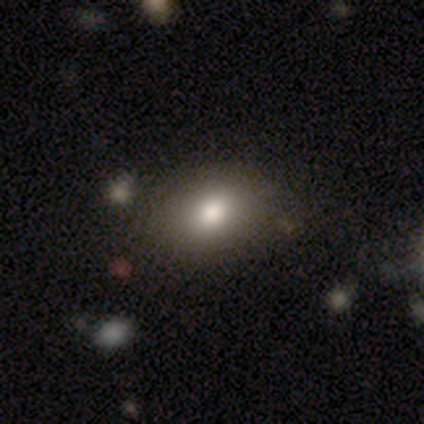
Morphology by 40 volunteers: Smooth or featured: smooth — 85% (featured or disk — 8%)
How rounded: in between — 65% (round — 35%)
Merging: none — 54% (minor disturbance — 8%)